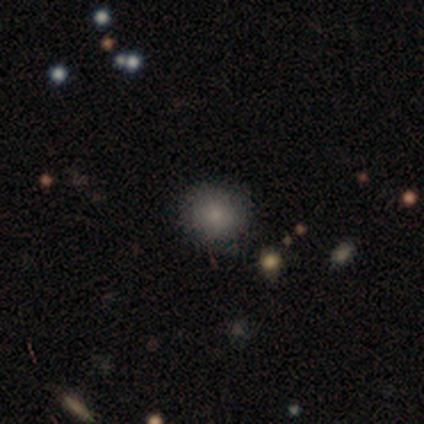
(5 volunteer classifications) Overall: smooth (60%; featured or disk 40%). How rounded: round (100%). Merging: none (100%).